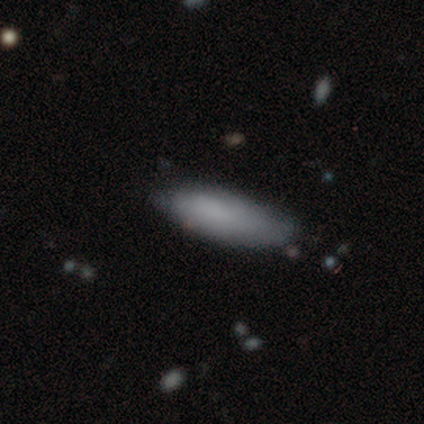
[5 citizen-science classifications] Smooth or featured?
  - smooth: 80% *
  - featured or disk: 20%
  - star or artifact: 0%
How rounded?
  - in between: 50% * (tied)
  - cigar-shaped: 50% * (tied)
  - round: 0%
Merging?
  - none: 60% *
  - minor disturbance: 20%
  - major disturbance: 20%
  - merger: 0%